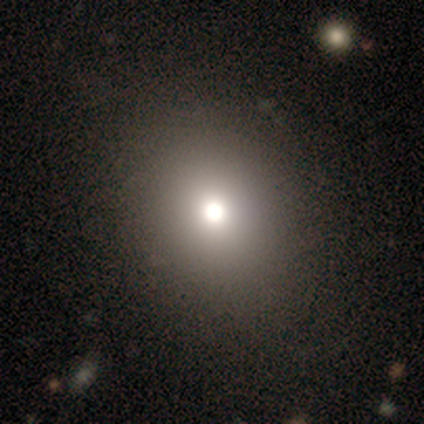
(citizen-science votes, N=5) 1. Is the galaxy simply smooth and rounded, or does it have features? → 80% smooth, 20% star or artifact, 0% featured or disk.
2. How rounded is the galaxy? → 100% round, 0% in between, 0% cigar-shaped.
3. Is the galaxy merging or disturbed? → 100% none, 0% minor disturbance, 0% major disturbance, 0% merger.